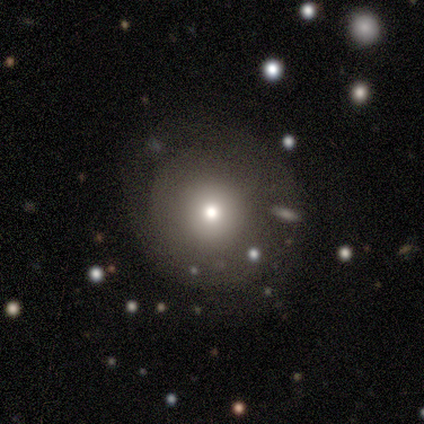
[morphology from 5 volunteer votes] smooth 40% (tied), featured or disk 40% (tied), star or artifact 20%. Down the decision tree: how rounded — round (100%); merging — none (100%).